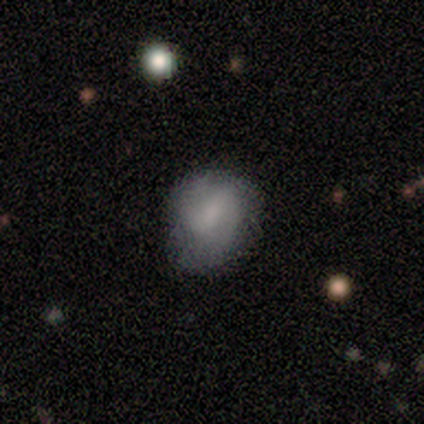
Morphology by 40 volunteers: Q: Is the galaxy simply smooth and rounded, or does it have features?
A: smooth — 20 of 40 (50%, tied with featured or disk).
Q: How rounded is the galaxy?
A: round — 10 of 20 (50%).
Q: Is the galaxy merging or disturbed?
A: none — 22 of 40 (55%).